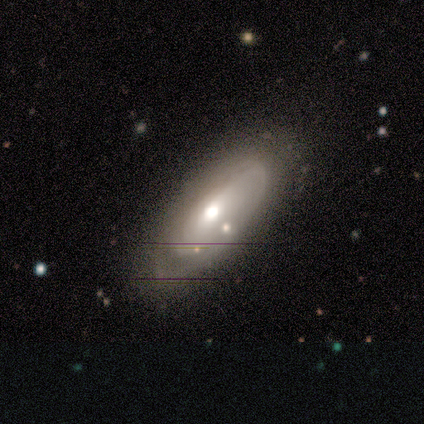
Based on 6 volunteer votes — Smooth or featured: featured or disk — 67% (smooth — 33%)
Edge-on disk: no — 75% (yes — 25%)
Bar: no — 67% (weak — 33%)
Spiral arms: no — 67% (yes — 33%)
Bulge size: moderate — 67% (large — 33%)
Merging: minor disturbance — 67% (none — 33%)